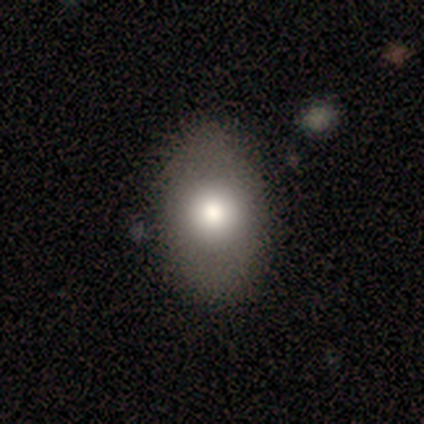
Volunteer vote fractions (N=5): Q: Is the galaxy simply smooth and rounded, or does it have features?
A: smooth — 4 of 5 (80%).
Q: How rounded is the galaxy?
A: round — 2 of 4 (50%, tied with in between).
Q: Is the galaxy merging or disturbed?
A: none — 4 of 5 (80%).